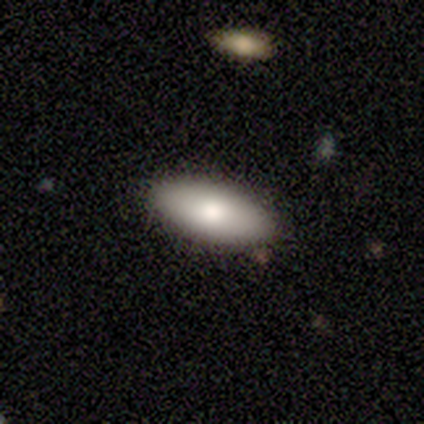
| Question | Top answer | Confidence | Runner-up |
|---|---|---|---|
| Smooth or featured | smooth | 100% | — |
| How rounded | in between | 80% | cigar-shaped (20%) |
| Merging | none | 100% | — |